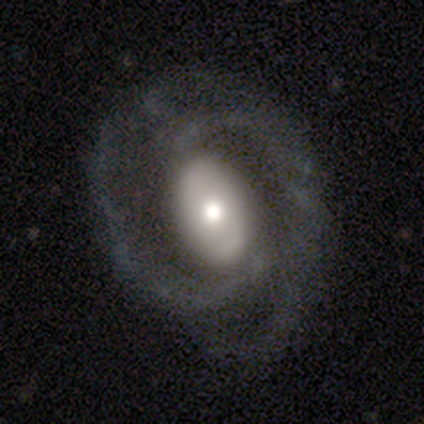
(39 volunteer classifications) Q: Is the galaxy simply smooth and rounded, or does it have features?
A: featured or disk — 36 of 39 (92%).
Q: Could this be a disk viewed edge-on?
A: no — 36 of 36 (100%).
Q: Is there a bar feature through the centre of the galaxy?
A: no — 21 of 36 (58%).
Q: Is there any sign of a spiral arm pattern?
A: yes — 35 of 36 (97%).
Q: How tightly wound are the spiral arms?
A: medium — 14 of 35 (40%).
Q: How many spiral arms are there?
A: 2 — 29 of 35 (83%).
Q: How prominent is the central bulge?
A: moderate — 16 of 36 (44%).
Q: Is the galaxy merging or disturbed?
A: none — 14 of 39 (36%).